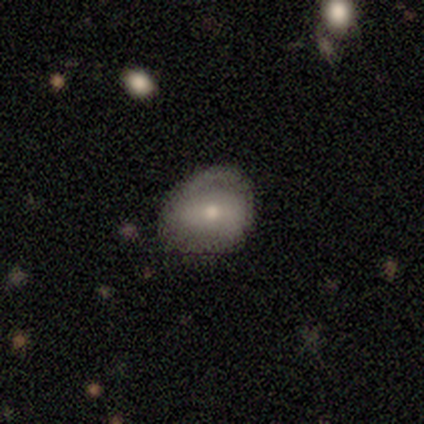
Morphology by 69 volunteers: smooth-or-featured: featured or disk: 51% | smooth: 42% | star or artifact: 7%
  disk-edge-on: no: 97% | yes: 3%
    bar: no: 62% | weak: 26% | strong: 12%
    has-spiral-arms: yes: 62% | no: 38%
      spiral-winding: tight: 62% | medium: 38% | loose: 0%
      spiral-arm-count: 2: 62% | 1: 19% | can't tell: 19% | 3: 0% | 4: 0% | more than 4: 0%
    bulge-size: small: 53% | moderate: 44% | large: 3% | dominant: 0% | none: 0%
  merging: none: 66% | minor disturbance: 25% | major disturbance: 8% | merger: 2%